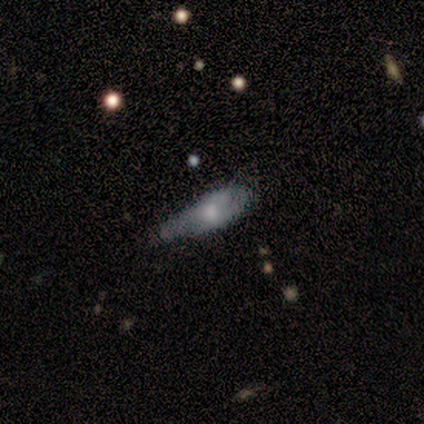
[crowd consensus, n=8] smooth-or-featured: smooth: 50% (tied) | featured or disk: 50% (tied) | star or artifact: 0%
  how-rounded: cigar-shaped: 75% | in between: 25% | round: 0%
  merging: none: 50% | minor disturbance: 25% | major disturbance: 25% | merger: 0%